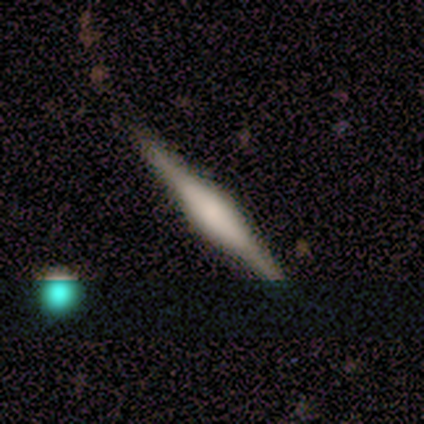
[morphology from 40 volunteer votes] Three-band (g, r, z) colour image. It shows a featured or disk galaxy (88%) viewed edge-on (94%) with a rounded central bulge (58%). Merging: none (87%).